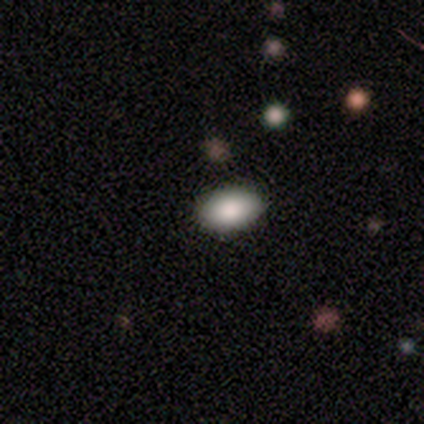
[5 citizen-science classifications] Q: Smooth or featured?
A: smooth (80%); runner-up: featured or disk (20%)
Q: How rounded?
A: in between (100%)
Q: Merging?
A: none (80%); runner-up: minor disturbance (20%)